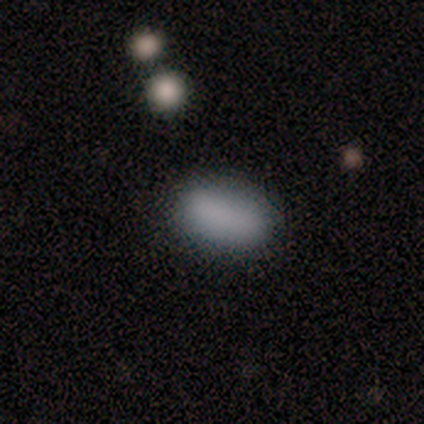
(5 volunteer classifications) This is clearly a smooth galaxy (100%). How rounded: clearly in between (100%). Merging: clearly none (80%).